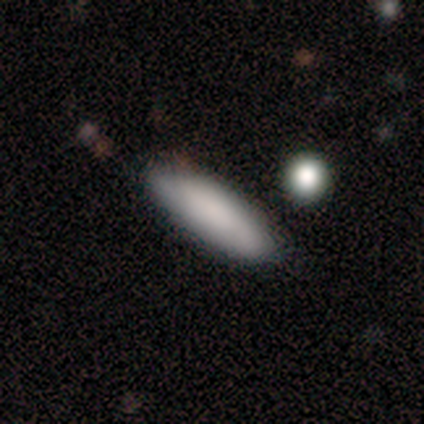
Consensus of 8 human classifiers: Q: Smooth or featured?
A: smooth (100%)
Q: How rounded?
A: cigar-shaped (62%); runner-up: in between (38%)
Q: Merging?
A: none (62%); runner-up: minor disturbance (25%)